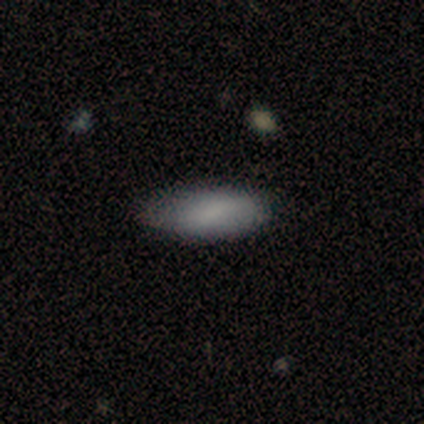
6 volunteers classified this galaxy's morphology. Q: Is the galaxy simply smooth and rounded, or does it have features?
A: smooth — 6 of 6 (100%).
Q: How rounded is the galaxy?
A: in between — 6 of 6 (100%).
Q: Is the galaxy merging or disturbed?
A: none — 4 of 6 (67%).